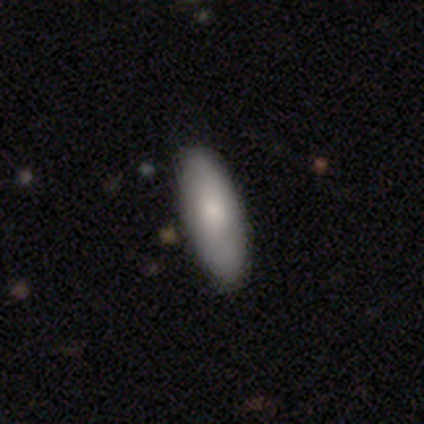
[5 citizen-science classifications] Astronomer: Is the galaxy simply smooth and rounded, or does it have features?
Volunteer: smooth — 80%.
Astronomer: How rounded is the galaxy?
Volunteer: in between — 75%.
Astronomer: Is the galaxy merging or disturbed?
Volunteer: none — 100%.